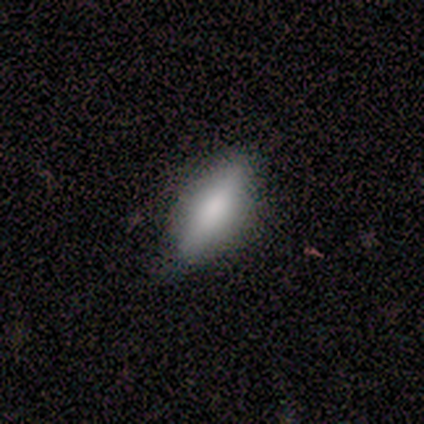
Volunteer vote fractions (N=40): Q: Smooth or featured?
A: smooth (78%); runner-up: featured or disk (22%)
Q: How rounded?
A: in between (58%); runner-up: cigar-shaped (42%)
Q: Merging?
A: none (85%); runner-up: minor disturbance (12%)